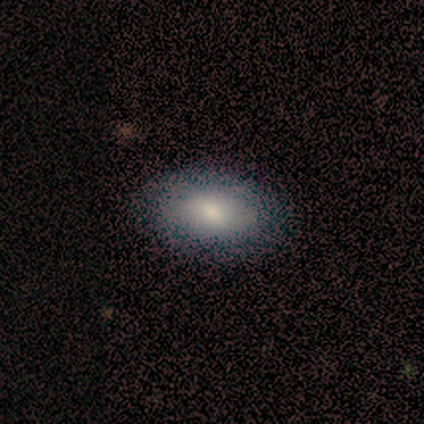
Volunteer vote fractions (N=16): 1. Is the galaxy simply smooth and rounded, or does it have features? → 69% smooth, 19% star or artifact, 12% featured or disk.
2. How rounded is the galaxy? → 100% in between, 0% round, 0% cigar-shaped.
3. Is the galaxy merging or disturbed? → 92% none, 8% minor disturbance, 0% major disturbance, 0% merger.